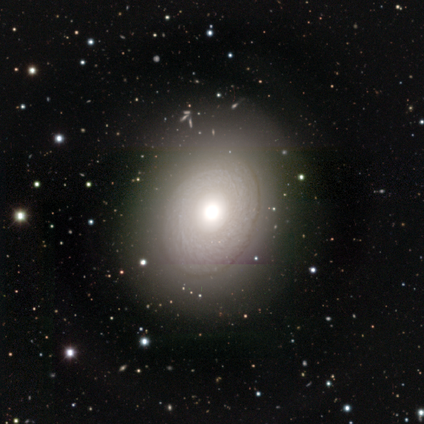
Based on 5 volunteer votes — Volunteers were most divided on "bar": no: 67%, strong: 33%, weak: 0%. More confident: edge-on disk — no (100%); bulge size — large (100%); merging — none (75%); spiral arms — no (67%); smooth or featured — featured or disk (60%).